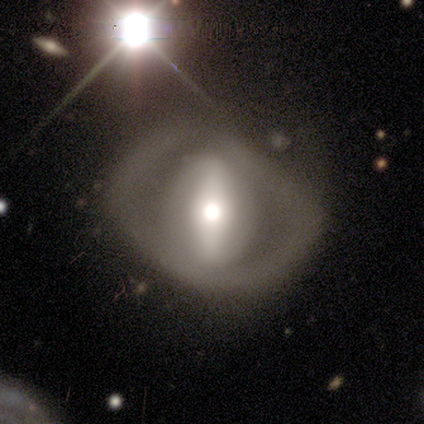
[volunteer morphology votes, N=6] smooth_or_featured: featured or disk (p=0.83) [alt: smooth p=0.17]
disk_edge_on: no (p=1.00)
bar: strong (p=0.60) [alt: no p=0.40]
has_spiral_arms: no (p=1.00)
bulge_size: moderate (p=0.80) [alt: large p=0.20]
merging: minor disturbance (p=0.50) [tied with: major disturbance p=0.50]